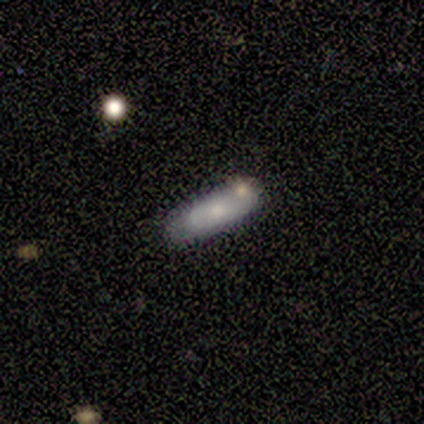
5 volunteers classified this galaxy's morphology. A smooth galaxy with no disk features (100%) that is in between round and cigar-shaped (60%). Merging: none (60%).